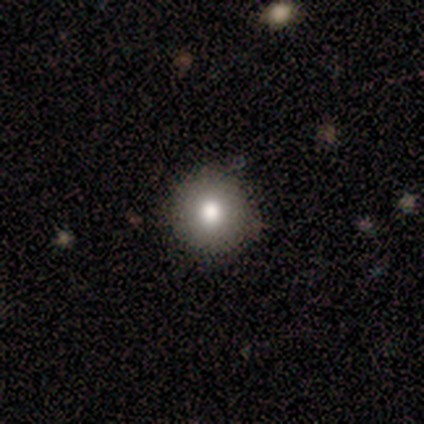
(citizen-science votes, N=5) Morphology: type=smooth (60%); roundness=round (100%); merging=none (75%).